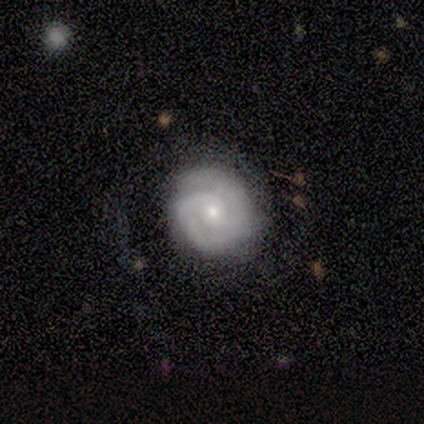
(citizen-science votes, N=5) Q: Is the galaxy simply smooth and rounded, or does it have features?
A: featured or disk — 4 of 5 (80%).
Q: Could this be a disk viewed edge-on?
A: no — 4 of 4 (100%).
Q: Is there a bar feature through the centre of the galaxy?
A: no — 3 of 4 (75%).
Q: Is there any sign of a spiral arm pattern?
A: yes — 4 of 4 (100%).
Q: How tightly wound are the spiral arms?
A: tight — 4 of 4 (100%).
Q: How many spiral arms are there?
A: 2 — 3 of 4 (75%).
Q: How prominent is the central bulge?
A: small — 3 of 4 (75%).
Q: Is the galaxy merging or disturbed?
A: none — 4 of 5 (80%).